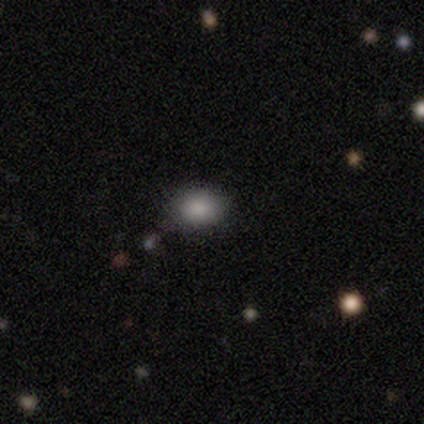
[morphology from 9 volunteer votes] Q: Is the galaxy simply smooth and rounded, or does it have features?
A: smooth — 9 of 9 (100%).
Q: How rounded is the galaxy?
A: in between — 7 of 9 (78%).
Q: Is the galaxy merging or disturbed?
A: none — 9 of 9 (100%).